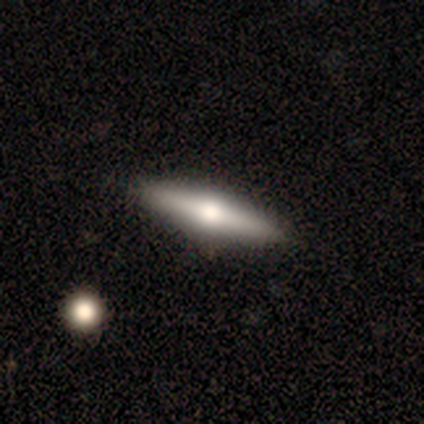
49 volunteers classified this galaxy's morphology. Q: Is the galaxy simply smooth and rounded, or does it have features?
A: featured or disk — 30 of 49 (61%).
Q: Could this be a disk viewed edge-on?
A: yes — 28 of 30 (93%).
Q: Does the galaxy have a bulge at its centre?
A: rounded — 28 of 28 (100%).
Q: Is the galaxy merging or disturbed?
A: none — 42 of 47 (89%).